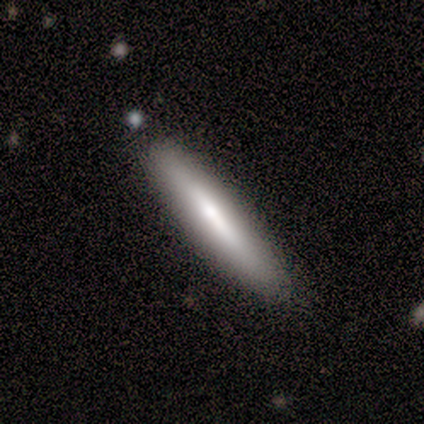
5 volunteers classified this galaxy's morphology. Smooth or featured?
  - smooth: 60% *
  - featured or disk: 40%
  - star or artifact: 0%
How rounded?
  - cigar-shaped: 100% *
  - round: 0%
  - in between: 0%
Merging?
  - none: 100% *
  - minor disturbance: 0%
  - major disturbance: 0%
  - merger: 0%